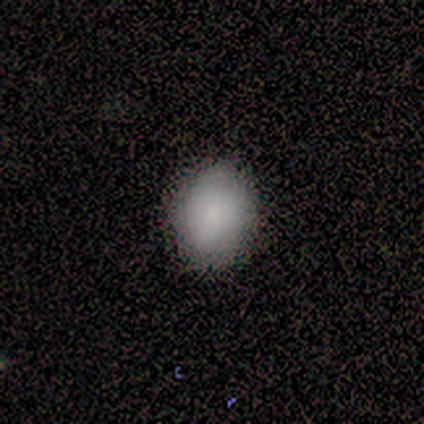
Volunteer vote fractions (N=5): A smooth galaxy with no disk features (100%) that is round (60%).

Vote fractions:
- Smooth or featured? smooth: 100% / featured or disk: 0% / star or artifact: 0%
- How rounded? round: 60% / in between: 40% / cigar-shaped: 0%
- Merging? none: 100% / minor disturbance: 0% / major disturbance: 0% / merger: 0%